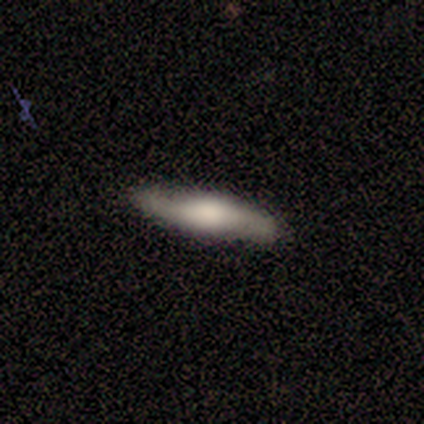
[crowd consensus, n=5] A featured or disk galaxy (60%) with a weak bar (50%, tied with no), no spiral arms (100%) and a large central bulge (100%).

Vote fractions:
- Smooth or featured? featured or disk: 60% / smooth: 20% / star or artifact: 20%
- Edge-on disk? no: 67% / yes: 33%
- Bar? weak: 50% (tied) / no: 50% (tied) / strong: 0%
- Spiral arms? no: 100% / yes: 0%
- Bulge size? large: 100% / dominant: 0% / moderate: 0% / small: 0% / none: 0%
- Merging? none: 75% / minor disturbance: 25% / major disturbance: 0% / merger: 0%